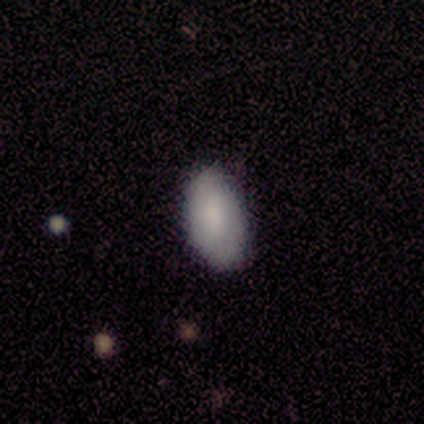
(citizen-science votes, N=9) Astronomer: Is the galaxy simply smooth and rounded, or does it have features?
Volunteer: smooth — 78%.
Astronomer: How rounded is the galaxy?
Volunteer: in between — 100%.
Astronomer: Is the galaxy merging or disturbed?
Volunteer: none — 56% (runner-up: minor disturbance, 33%).